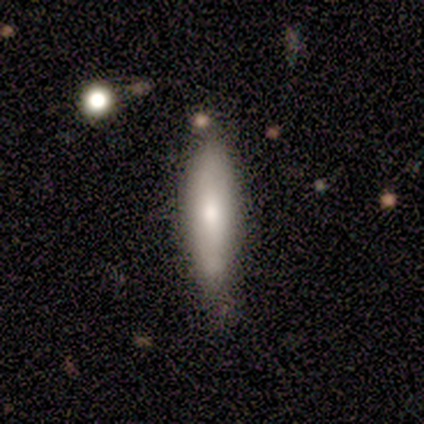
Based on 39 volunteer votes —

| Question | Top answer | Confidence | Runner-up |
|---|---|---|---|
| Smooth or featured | smooth | 69% | featured or disk (26%) |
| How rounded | cigar-shaped | 67% | in between (33%) |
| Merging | none | 78% | minor disturbance (19%) |